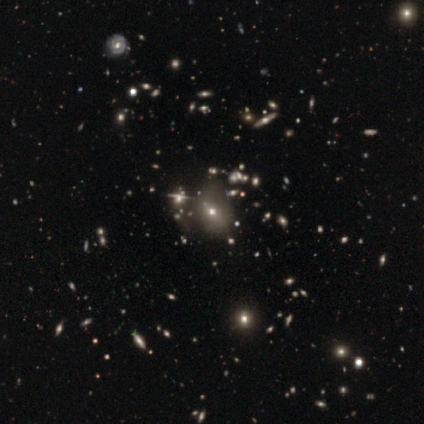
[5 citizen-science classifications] smooth-or-featured: star or artifact: 60% | smooth: 40% | featured or disk: 0%